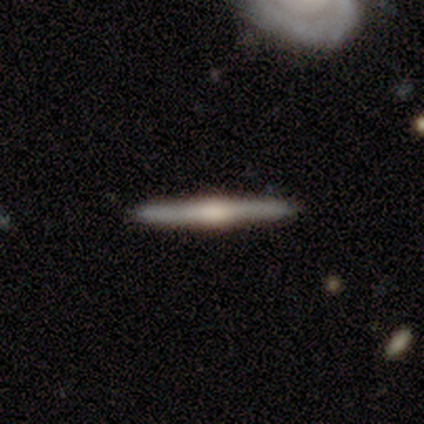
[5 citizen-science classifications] Smooth or featured? featured or disk (100%)
Edge-on disk? yes (100%)
Edge-on bulge? rounded (100%)
Merging? none (100%)